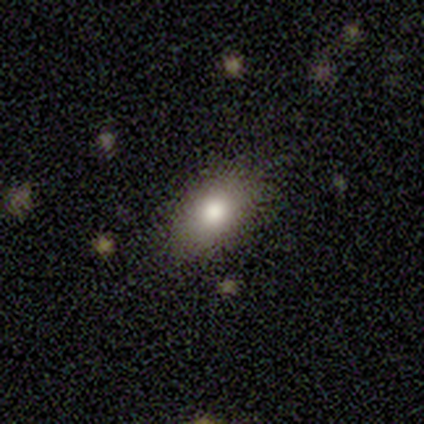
Q: Smooth or featured?
A: smooth (93%); runner-up: featured or disk (7%)
Q: How rounded?
A: in between (85%); runner-up: round (15%)
Q: Merging?
A: none (79%); runner-up: minor disturbance (14%)